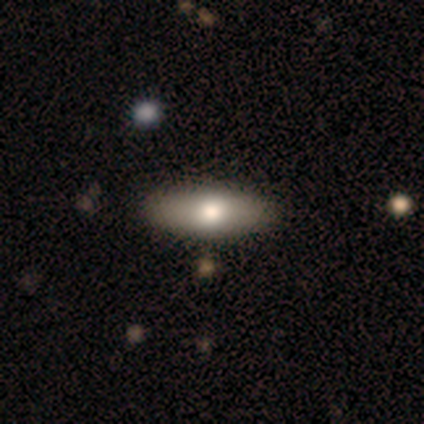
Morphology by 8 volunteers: Smooth or featured? 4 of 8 (50%) said smooth. How rounded? 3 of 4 (75%) said cigar-shaped. Merging? 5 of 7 (71%) said none.